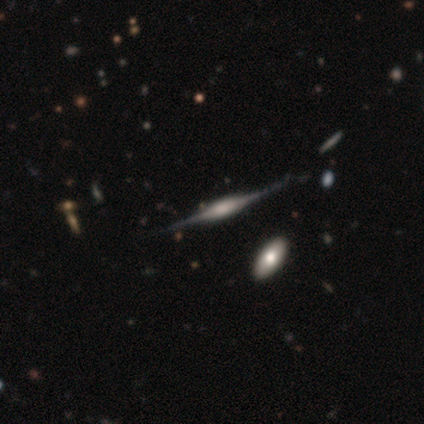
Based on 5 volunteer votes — Q: Smooth or featured?
A: featured or disk (100%)
Q: Edge-on disk?
A: yes (100%)
Q: Edge-on bulge?
A: boxy (60%); runner-up: rounded (40%)
Q: Merging?
A: none (80%); runner-up: major disturbance (20%)